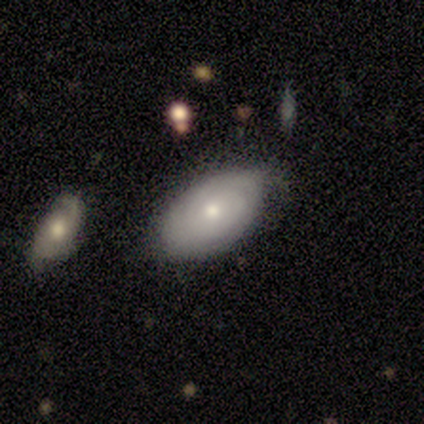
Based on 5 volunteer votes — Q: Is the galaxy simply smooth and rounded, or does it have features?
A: smooth — 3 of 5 (60%).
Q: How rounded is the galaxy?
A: in between — 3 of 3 (100%).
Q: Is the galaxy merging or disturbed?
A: none — 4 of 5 (80%).